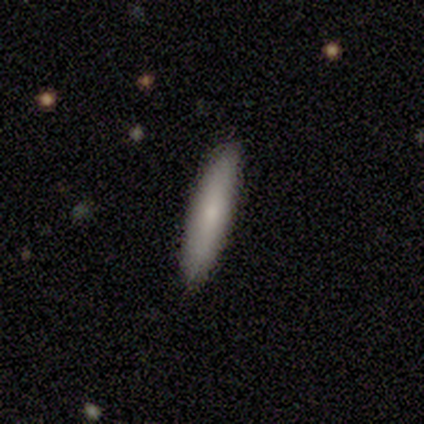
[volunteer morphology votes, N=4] Q: Smooth or featured?
A: smooth (100%)
Q: How rounded?
A: cigar-shaped (100%)
Q: Merging?
A: none (100%)